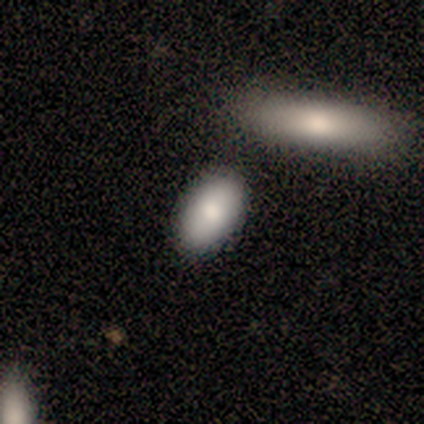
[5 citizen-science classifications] smooth-or-featured: smooth: 100% | featured or disk: 0% | star or artifact: 0%
  how-rounded: in between: 100% | round: 0% | cigar-shaped: 0%
  merging: none: 100% | minor disturbance: 0% | major disturbance: 0% | merger: 0%